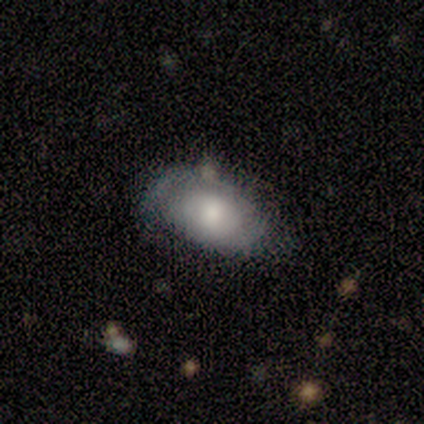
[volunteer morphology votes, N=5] smooth-or-featured: smooth: 60% | featured or disk: 40% | star or artifact: 0%
  how-rounded: in between: 100% | round: 0% | cigar-shaped: 0%
  merging: none: 60% | minor disturbance: 40% | major disturbance: 0% | merger: 0%